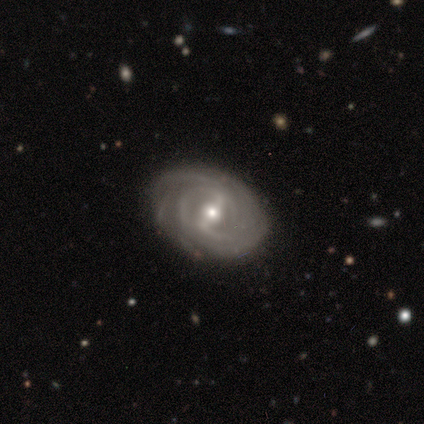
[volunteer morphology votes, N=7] Volunteers were most divided on "spiral arm count": can't tell: 33%, 2: 17%, 3: 17%, 4: 17%, more than 4: 17%, 1: 0%. More confident: edge-on disk — no (100%); spiral arms — yes (100%); merging — none (100%); smooth or featured — featured or disk (86%); bar — strong (83%); spiral winding — tight (83%); bulge size — moderate (67%).